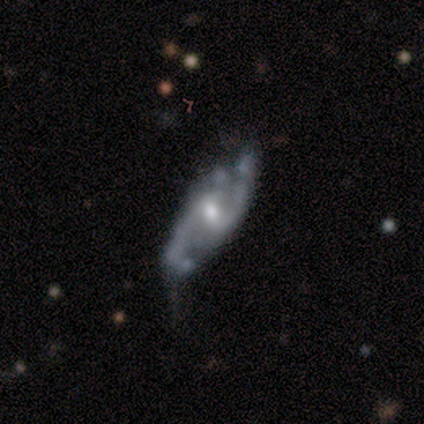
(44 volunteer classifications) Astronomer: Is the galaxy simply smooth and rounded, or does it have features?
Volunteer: featured or disk — 77%.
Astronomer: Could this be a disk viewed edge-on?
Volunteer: no — 97%.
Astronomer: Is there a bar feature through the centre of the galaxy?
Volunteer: weak — 64%.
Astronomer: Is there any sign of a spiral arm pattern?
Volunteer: yes — 94%.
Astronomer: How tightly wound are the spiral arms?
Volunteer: medium — 55% (runner-up: loose, 35%).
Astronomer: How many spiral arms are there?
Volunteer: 2 — 84%.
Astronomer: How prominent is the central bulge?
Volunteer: moderate — 61% (runner-up: small, 39%).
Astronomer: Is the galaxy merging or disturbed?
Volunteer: minor disturbance — 46% (runner-up: none, 44%).